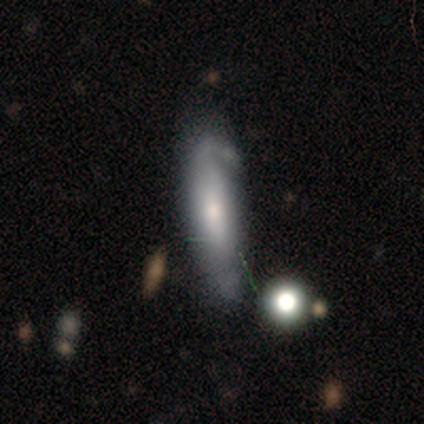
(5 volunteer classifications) Smooth or featured: smooth — 40% (tied with featured or disk — 40%)
How rounded: in between — 50% (tied with cigar-shaped — 50%)
Merging: none — 50% (tied with minor disturbance — 50%)